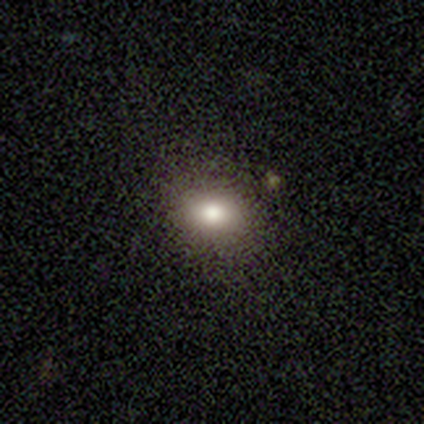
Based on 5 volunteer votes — Morphology: type=smooth (80%); roundness=in between (100%); merging=none (80%).